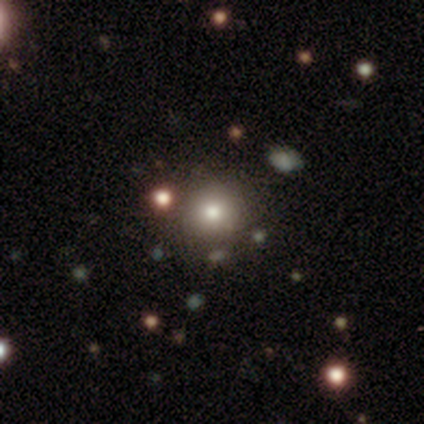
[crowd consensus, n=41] This is likely a smooth galaxy (71%). How rounded: clearly round (97%). Merging: clearly none (85%).